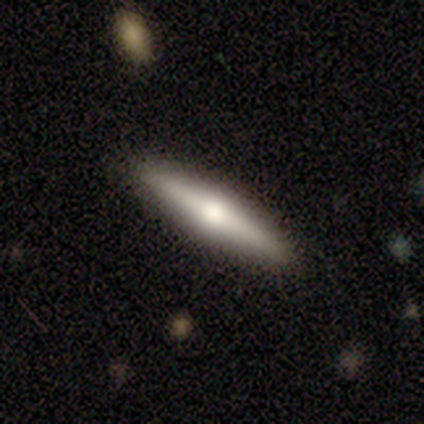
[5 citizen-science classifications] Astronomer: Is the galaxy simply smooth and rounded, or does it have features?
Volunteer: featured or disk — 60% (runner-up: smooth, 40%).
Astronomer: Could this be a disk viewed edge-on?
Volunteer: yes — 67%.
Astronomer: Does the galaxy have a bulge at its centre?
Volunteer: rounded — 100%.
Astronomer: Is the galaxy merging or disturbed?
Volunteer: none — 100%.